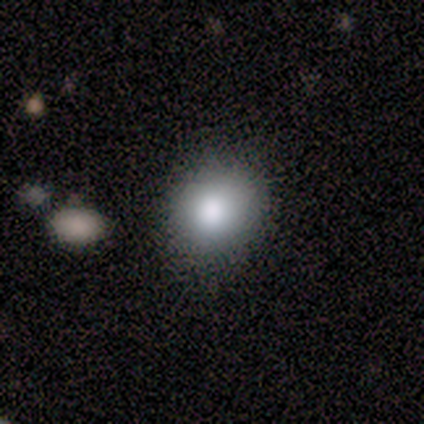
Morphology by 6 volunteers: type=smooth (100%); roundness=round (50%, tied with in between); merging=none (83%).